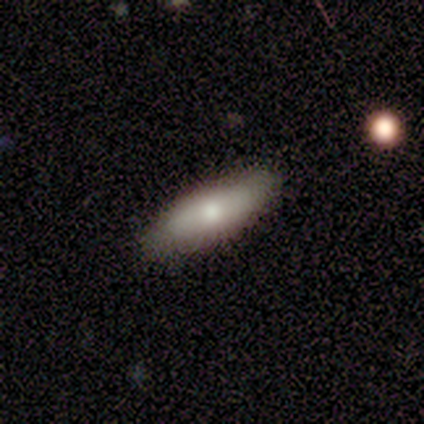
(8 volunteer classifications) Morphology: type=smooth (62%); roundness=in between (80%); merging=none (88%).